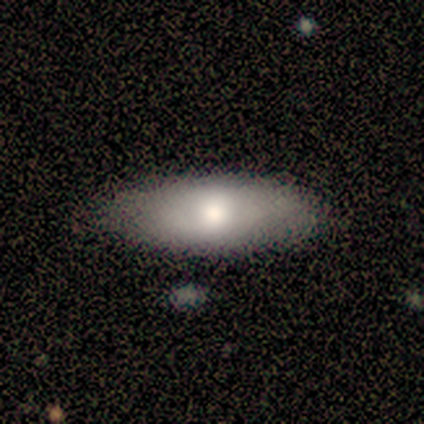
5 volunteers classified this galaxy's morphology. This appears to be a smooth galaxy with no disk features (80%) that is in between round and cigar-shaped (100%). Merging: none (75%).